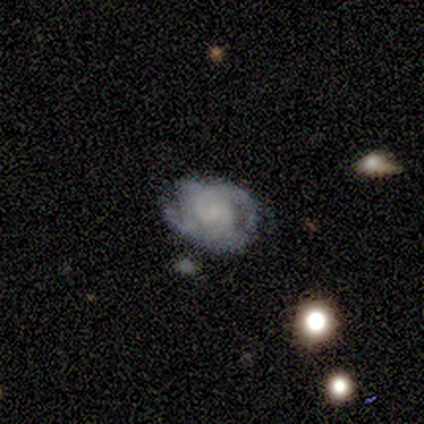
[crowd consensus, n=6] Overall: featured or disk (83%). Edge-on disk: no (100%). Bar: no (60%; weak 40%). Spiral arms: yes (60%; no 40%). Spiral arm count: 2 (67%; can't tell 33%). Spiral winding: medium (67%; tight 33%). Bulge size: none (60%; small 40%). Merging: none (67%).